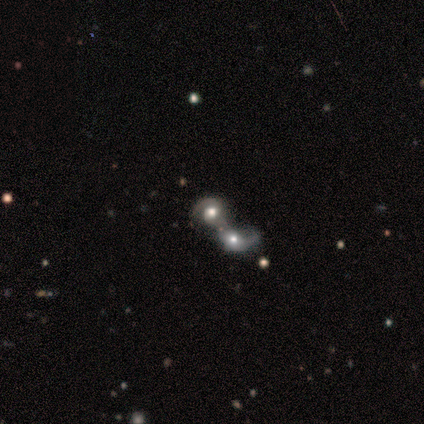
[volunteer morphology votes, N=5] smooth_or_featured: featured or disk (p=0.60) [alt: smooth p=0.20]
disk_edge_on: no (p=1.00)
bar: no (p=1.00)
has_spiral_arms: yes (p=1.00)
spiral_winding: tight (p=0.33) [tied with: medium p=0.33, loose p=0.33]
spiral_arm_count: 1 (p=0.67) [alt: 2 p=0.33]
bulge_size: large (p=0.67) [alt: moderate p=0.33]
merging: merger (p=1.00)